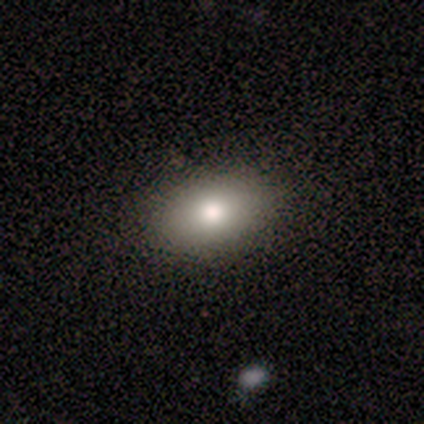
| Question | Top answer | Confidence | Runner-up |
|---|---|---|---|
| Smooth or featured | smooth | 67% | featured or disk (33%) |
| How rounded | round | 50% | tied: in between (50%) |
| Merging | none | 100% | — |